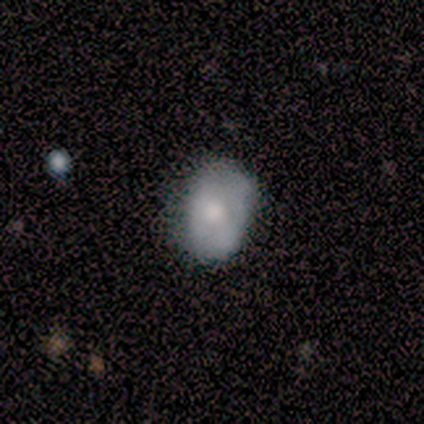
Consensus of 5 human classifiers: Overall: smooth (60%; featured or disk 40%). How rounded: in between (100%). Merging: minor disturbance (60%; none 40%).